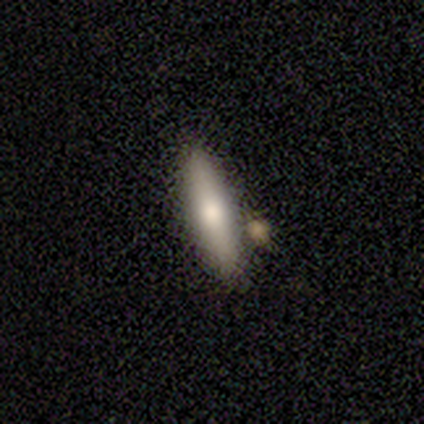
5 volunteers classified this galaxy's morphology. Volunteers were most divided on "smooth or featured": featured or disk: 60%, smooth: 40%, star or artifact: 0%. More confident: edge-on bulge — rounded (100%); merging — none (100%); edge-on disk — yes (67%).